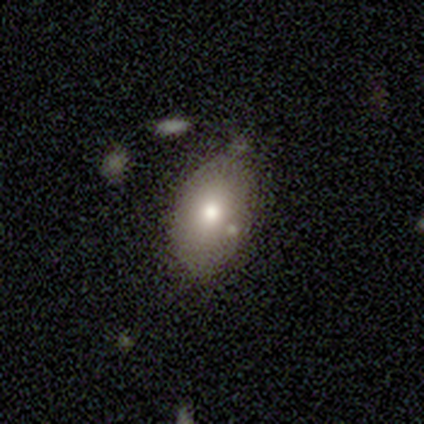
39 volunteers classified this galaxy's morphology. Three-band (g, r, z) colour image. It shows a smooth galaxy with no disk features (67%) that is in between round and cigar-shaped (88%). Merging: none (66%).